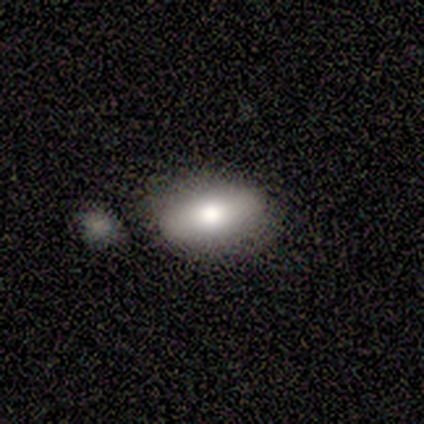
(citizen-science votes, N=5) Smooth or featured: smooth — 100%
How rounded: in between — 80% (round — 20%)
Merging: none — 40% (tied with merger — 40%)